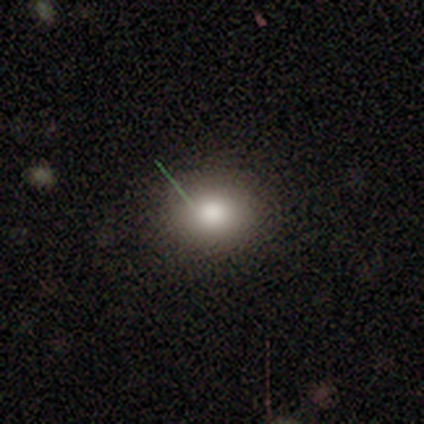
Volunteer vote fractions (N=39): Overall: smooth (72%). How rounded: round (71%). Merging: none (97%).